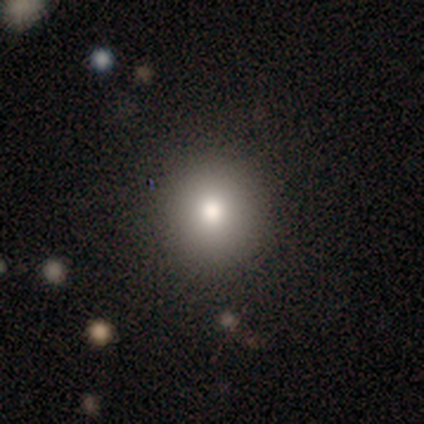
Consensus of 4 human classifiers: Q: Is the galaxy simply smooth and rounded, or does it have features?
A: smooth — 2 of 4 (50%, tied with featured or disk).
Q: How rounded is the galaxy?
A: round — 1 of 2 (50%, tied with in between).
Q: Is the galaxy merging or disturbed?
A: none — 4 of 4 (100%).